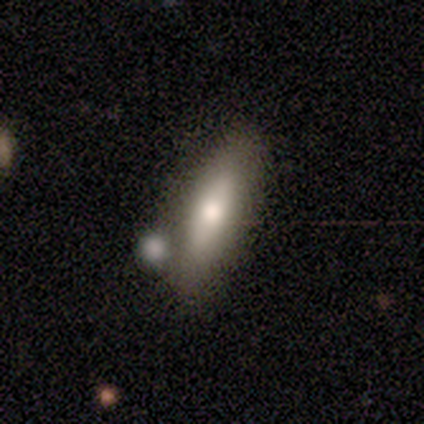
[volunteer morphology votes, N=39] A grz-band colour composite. It shows a smooth galaxy with no disk features (56%) that is in between round and cigar-shaped (50%, tied with cigar-shaped). Merging: none (66%).